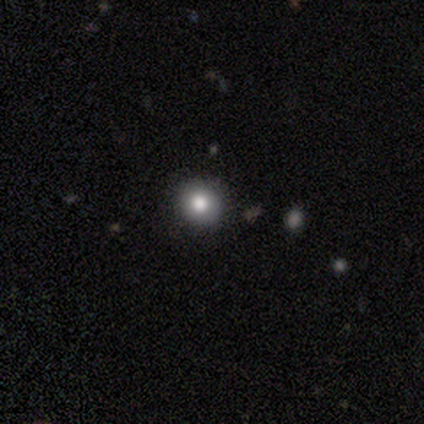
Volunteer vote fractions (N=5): Smooth or featured? 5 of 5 (100%) said smooth. How rounded? 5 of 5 (100%) said round. Merging? 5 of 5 (100%) said none.